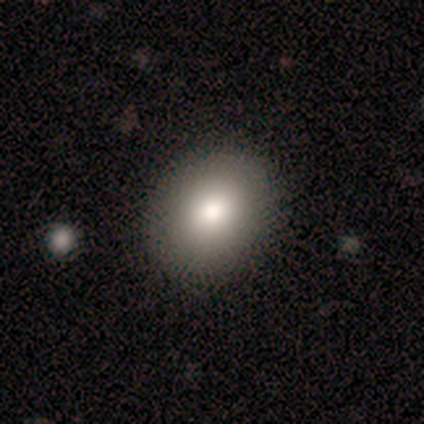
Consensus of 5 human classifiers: smooth_or_featured: smooth (p=1.00)
how_rounded: round (p=0.60) [alt: in between p=0.40]
merging: none (p=0.80) [alt: merger p=0.20]